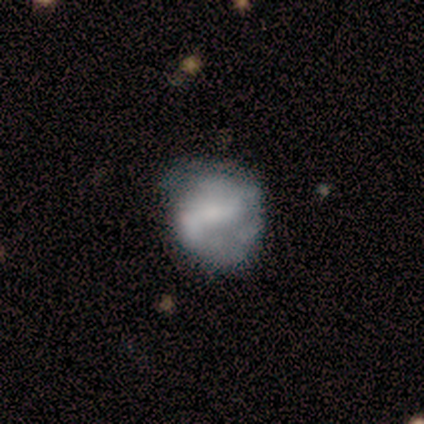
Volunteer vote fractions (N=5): Smooth or featured? 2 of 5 (40%, tied with featured or disk) said smooth. How rounded? 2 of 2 (100%) said round. Merging? 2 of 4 (50%) said minor disturbance.